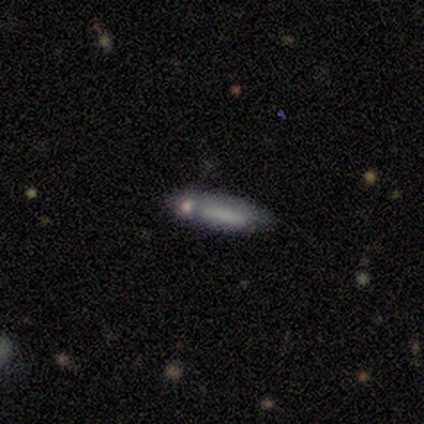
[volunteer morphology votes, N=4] Smooth or featured?
  - smooth: 75% *
  - featured or disk: 25%
  - star or artifact: 0%
How rounded?
  - in between: 67% *
  - cigar-shaped: 33%
  - round: 0%
Merging?
  - none: 50% * (tied)
  - merger: 50% * (tied)
  - minor disturbance: 0%
  - major disturbance: 0%